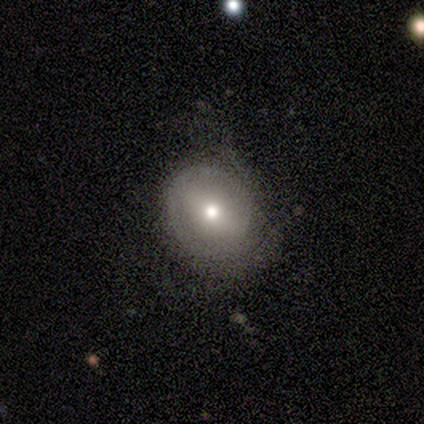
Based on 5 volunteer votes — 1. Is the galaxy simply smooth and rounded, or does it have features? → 80% featured or disk, 20% smooth, 0% star or artifact.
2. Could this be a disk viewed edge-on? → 100% no, 0% yes.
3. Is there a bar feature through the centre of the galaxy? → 50% weak (tied), 50% no (tied), 0% strong.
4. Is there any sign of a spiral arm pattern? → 50% yes (tied), 50% no (tied).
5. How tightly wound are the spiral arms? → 100% tight, 0% medium, 0% loose.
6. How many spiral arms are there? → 50% 1 (tied), 50% 2 (tied), 0% 3, 0% 4, 0% more than 4, 0% can't tell.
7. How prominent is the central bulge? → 75% small, 25% moderate, 0% dominant, 0% large, 0% none.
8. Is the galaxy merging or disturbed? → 100% none, 0% minor disturbance, 0% major disturbance, 0% merger.